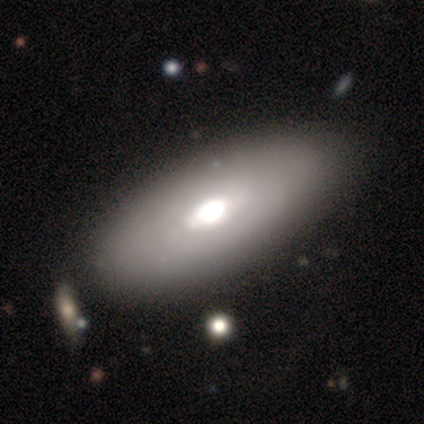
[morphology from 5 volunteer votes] smooth_or_featured: smooth (p=0.80) [alt: featured or disk p=0.20]
how_rounded: in between (p=1.00)
merging: none (p=1.00)